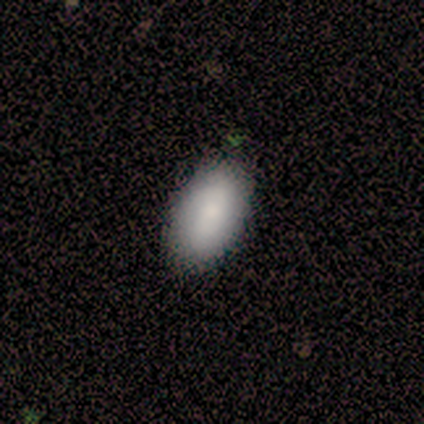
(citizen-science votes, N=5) This appears to be a smooth galaxy with no disk features (40%, tied with featured or disk) that is in between round and cigar-shaped (100%). Merging: none (100%).